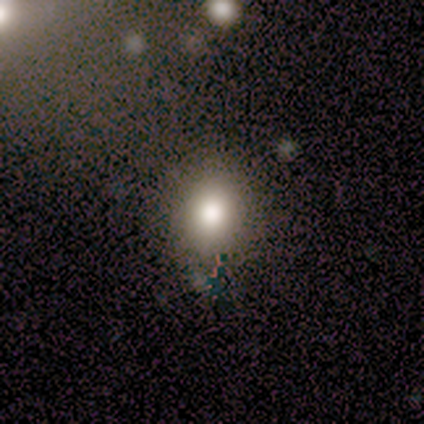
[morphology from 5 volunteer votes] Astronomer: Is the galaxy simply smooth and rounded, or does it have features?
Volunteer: smooth — 80%.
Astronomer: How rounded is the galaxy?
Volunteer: round — 75%.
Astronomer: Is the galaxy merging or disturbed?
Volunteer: none — 100%.